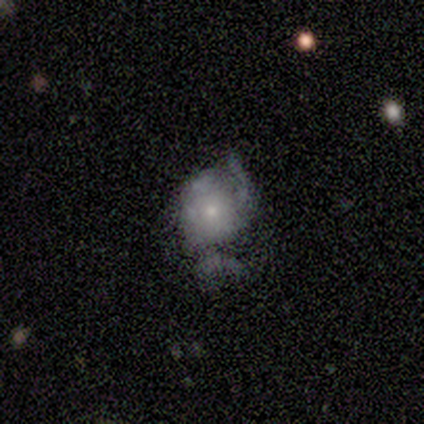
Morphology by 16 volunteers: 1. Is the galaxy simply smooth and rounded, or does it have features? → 62% featured or disk, 31% smooth, 6% star or artifact.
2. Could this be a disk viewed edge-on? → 100% no, 0% yes.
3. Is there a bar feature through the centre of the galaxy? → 100% no, 0% strong, 0% weak.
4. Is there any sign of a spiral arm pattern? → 60% no, 40% yes.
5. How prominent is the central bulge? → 70% small, 30% moderate, 0% dominant, 0% large, 0% none.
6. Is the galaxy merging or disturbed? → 40% major disturbance, 33% minor disturbance, 27% none, 0% merger.